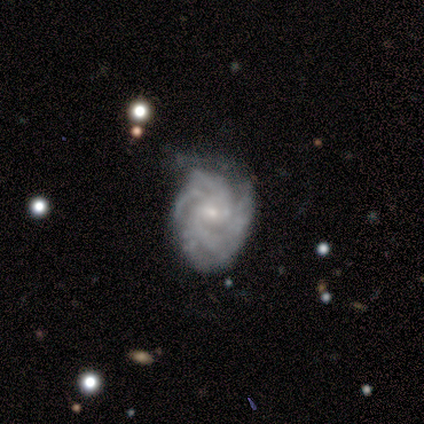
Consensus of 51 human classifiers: This is clearly a featured or disk galaxy (88%). It is clearly not viewed edge-on (98%). Bar: likely no (64%). Spiral arm pattern: clearly yes (100%). Spiral arm count: marginally 2 (20%, tied with 3, 4 and can't tell). Spiral winding: possibly tight (50%). Central bulge: likely small (77%). Merging: possibly minor disturbance (49%).